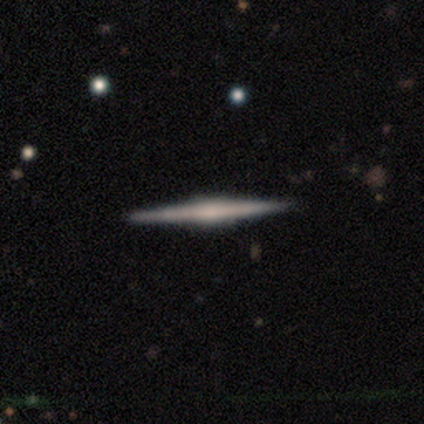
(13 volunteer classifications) featured or disk 69%, smooth 23%, star or artifact 8%. Down the decision tree: edge-on disk — yes (100%); edge-on bulge — rounded (67%); merging — none (100%).